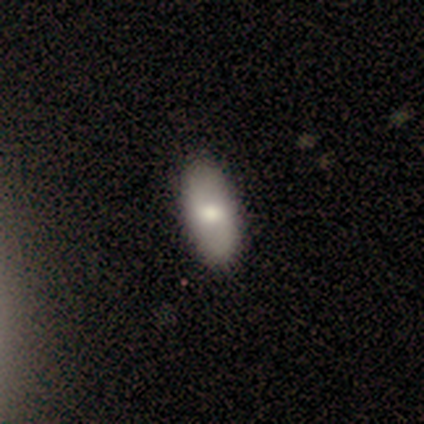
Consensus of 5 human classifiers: This is likely a smooth galaxy (60%). How rounded: clearly in between (100%). Merging: clearly none (80%).